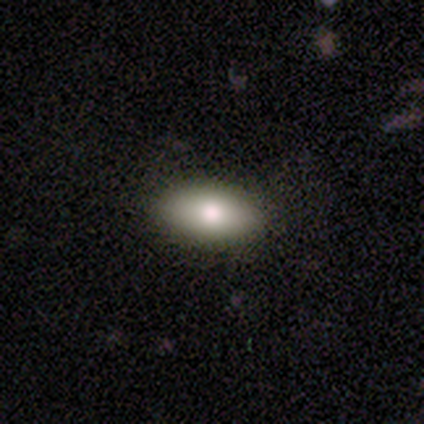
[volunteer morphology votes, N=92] type=smooth (88%); roundness=in between (96%); merging=none (95%).